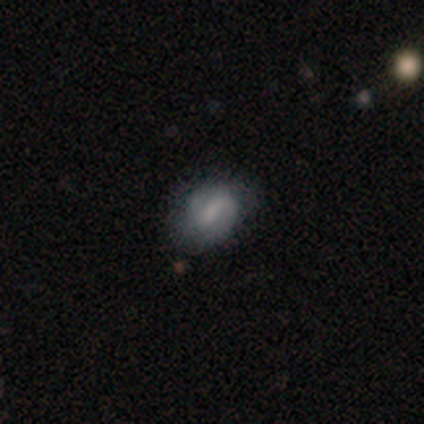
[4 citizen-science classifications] Smooth or featured? smooth (75%)
How rounded? in between (67%)
Merging? none (67%)